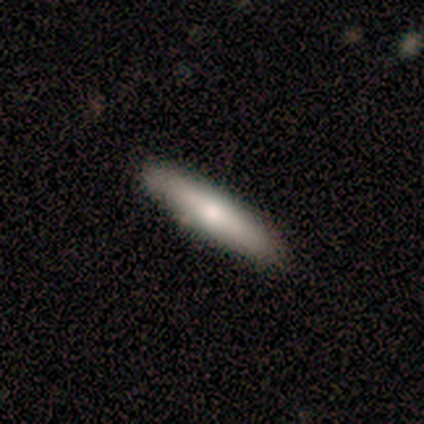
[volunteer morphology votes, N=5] A featured or disk galaxy (60%) viewed edge-on (100%) with a rounded central bulge (100%). Merging: none (100%).